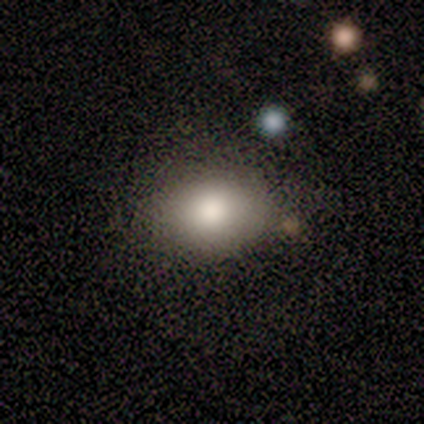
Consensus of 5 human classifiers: Morphology: type=smooth (80%); roundness=in between (100%); merging=none (100%).